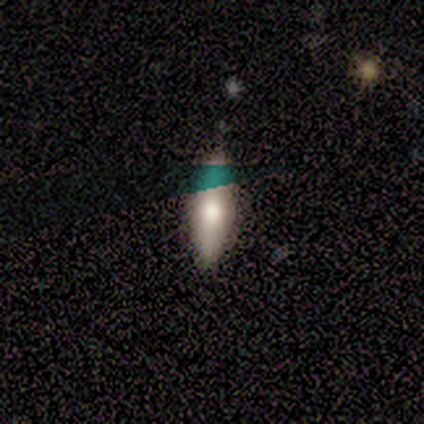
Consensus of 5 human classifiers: smooth-or-featured: featured or disk: 40% (tied) | star or artifact: 40% (tied) | smooth: 20%
  disk-edge-on: yes: 100% | no: 0%
    edge-on-bulge: rounded: 100% | boxy: 0% | none: 0%
  merging: none: 100% | minor disturbance: 0% | major disturbance: 0% | merger: 0%